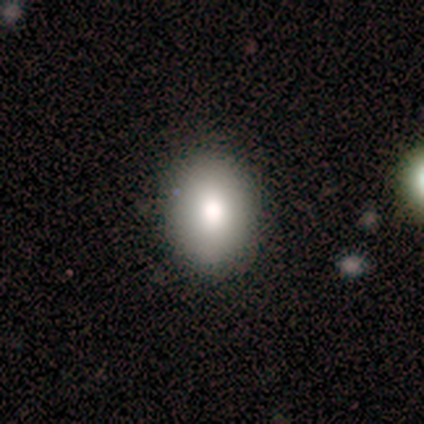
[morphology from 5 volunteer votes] Smooth or featured?
  - smooth: 80% *
  - featured or disk: 20%
  - star or artifact: 0%
How rounded?
  - round: 50% * (tied)
  - in between: 50% * (tied)
  - cigar-shaped: 0%
Merging?
  - none: 100% *
  - minor disturbance: 0%
  - major disturbance: 0%
  - merger: 0%